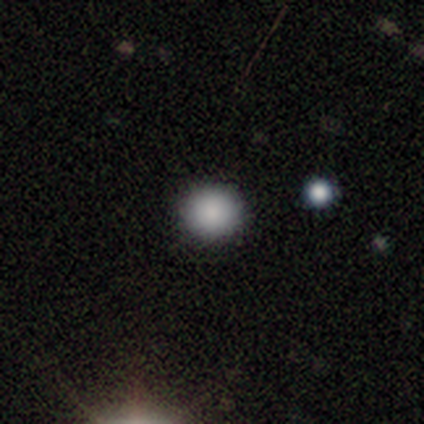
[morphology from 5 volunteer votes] Overall: smooth (100%). How rounded: round (100%). Merging: none (100%).